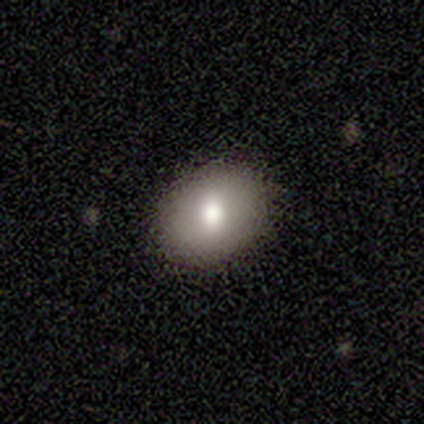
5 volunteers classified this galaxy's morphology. smooth 60%, featured or disk 20%, star or artifact 20%. Down the decision tree: how rounded — round (100%); merging — none (100%).